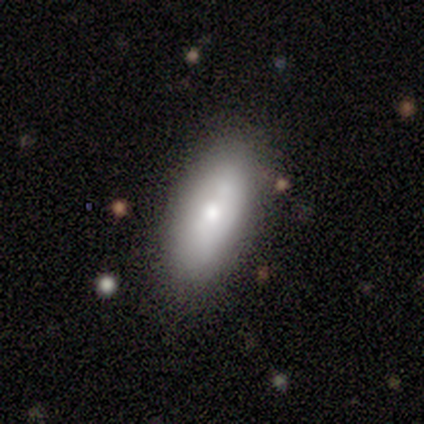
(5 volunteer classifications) This is likely a smooth galaxy (60%). How rounded: clearly in between (100%). Merging: clearly none (80%).